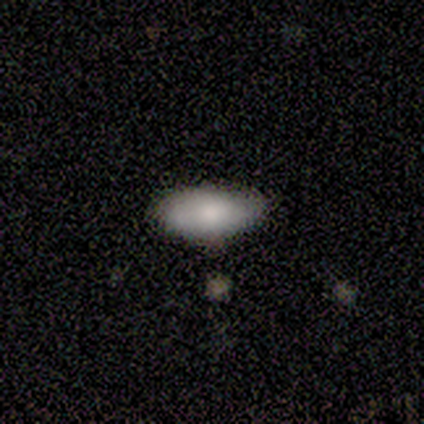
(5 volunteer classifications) Overall: smooth (80%). How rounded: in between (100%). Merging: none (60%; minor disturbance 40%).